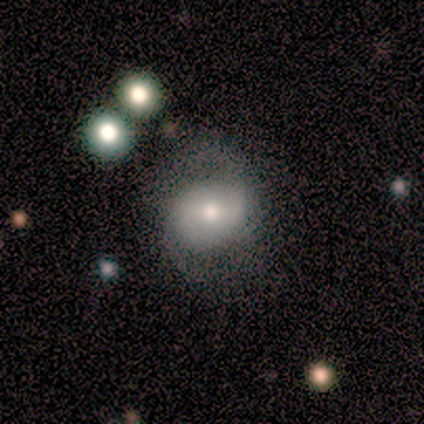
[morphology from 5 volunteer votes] This appears to be a smooth galaxy with no disk features (60%) that is round (67%). Merging: none (80%).